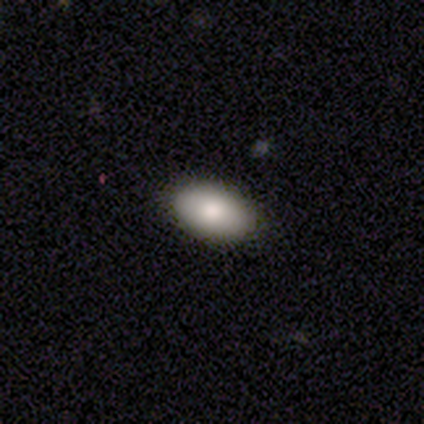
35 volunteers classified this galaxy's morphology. Q: Smooth or featured?
A: smooth (86%); runner-up: featured or disk (11%)
Q: How rounded?
A: in between (90%); runner-up: cigar-shaped (7%)
Q: Merging?
A: none (88%); runner-up: minor disturbance (6%)